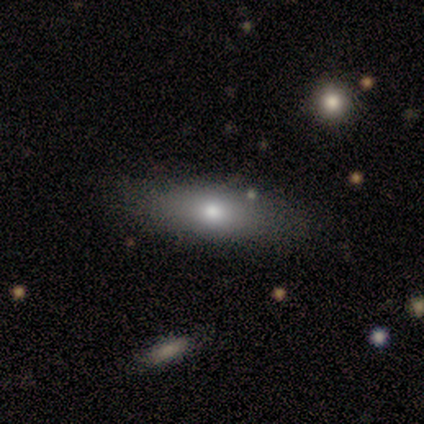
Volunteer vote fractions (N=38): Morphology: type=smooth (71%); roundness=in between (74%); merging=none (91%).